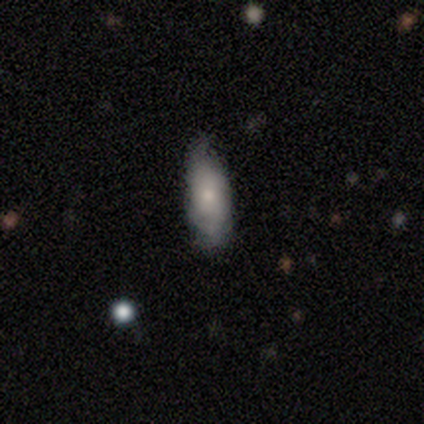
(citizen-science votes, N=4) This is likely a smooth galaxy (75%). How rounded: clearly in between (100%). Merging: likely none (75%).